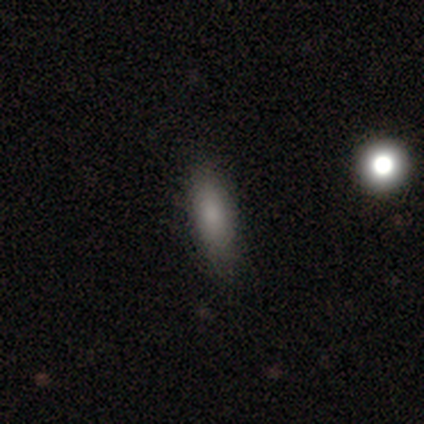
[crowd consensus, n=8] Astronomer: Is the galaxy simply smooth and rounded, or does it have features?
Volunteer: smooth — 75%.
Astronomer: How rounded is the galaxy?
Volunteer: in between — 83%.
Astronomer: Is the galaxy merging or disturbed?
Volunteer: none — 88%.